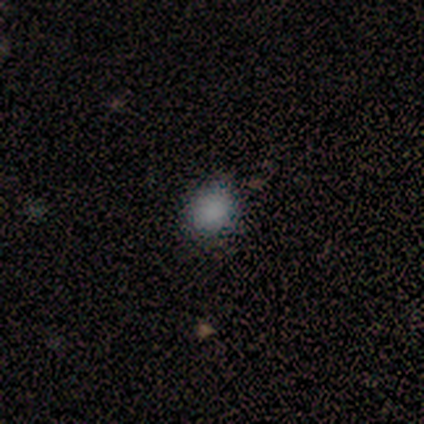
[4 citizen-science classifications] Q: Smooth or featured?
A: smooth (100%)
Q: How rounded?
A: round (75%); runner-up: in between (25%)
Q: Merging?
A: none (75%); runner-up: minor disturbance (25%)